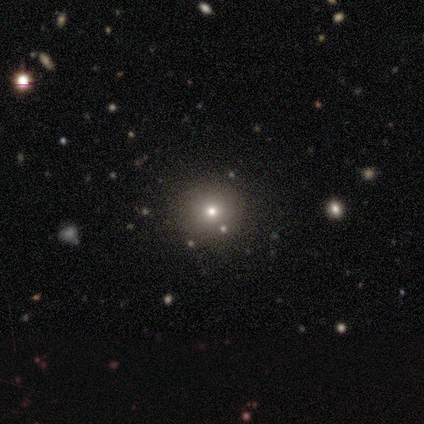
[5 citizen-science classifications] Q: Smooth or featured?
A: smooth (60%); runner-up: star or artifact (40%)
Q: How rounded?
A: round (100%)
Q: Merging?
A: none (100%)